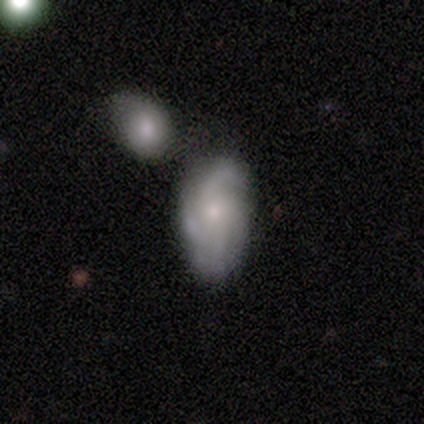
Overall: featured or disk (54%; smooth 36%). Edge-on disk: no (100%). Bar: no (57%; weak 38%). Spiral arms: yes (100%). Spiral arm count: 4 (43%; 3 29%). Spiral winding: medium (52%; tight 33%). Bulge size: small (71%). Merging: none (54%; minor disturbance 23%).